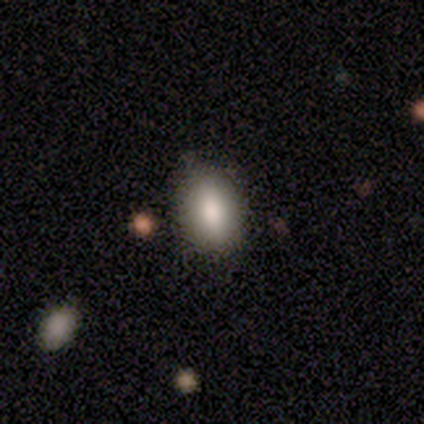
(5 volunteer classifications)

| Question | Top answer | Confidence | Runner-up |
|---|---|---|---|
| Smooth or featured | smooth | 80% | star or artifact (20%) |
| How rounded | in between | 75% | round (25%) |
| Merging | none | 75% | minor disturbance (25%) |